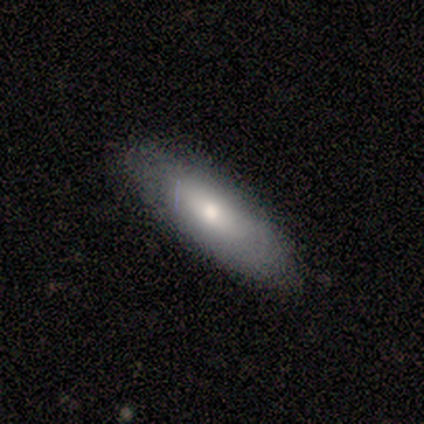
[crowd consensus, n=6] Volunteers were most divided on "how rounded": in between: 60%, cigar-shaped: 40%, round: 0%. More confident: smooth or featured — smooth (83%); merging — none (83%).